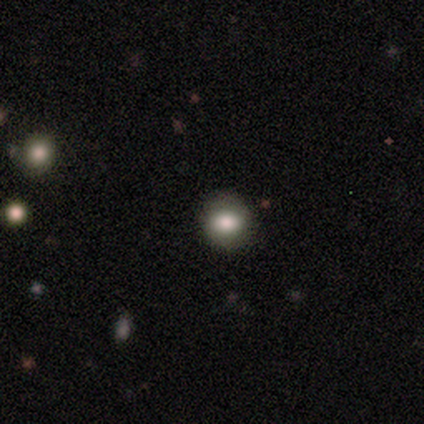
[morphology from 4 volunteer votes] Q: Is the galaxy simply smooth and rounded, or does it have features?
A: smooth — 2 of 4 (50%, tied with featured or disk).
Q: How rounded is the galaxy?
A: round — 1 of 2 (50%, tied with in between).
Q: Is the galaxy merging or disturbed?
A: none — 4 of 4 (100%).